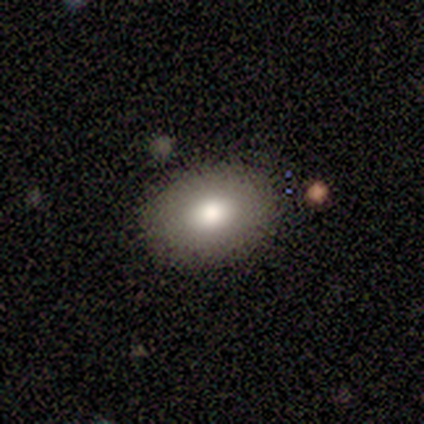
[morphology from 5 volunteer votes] Smooth or featured? smooth (100%)
How rounded? in between (100%)
Merging? none (100%)